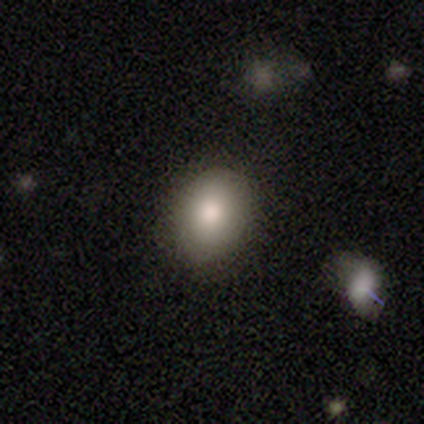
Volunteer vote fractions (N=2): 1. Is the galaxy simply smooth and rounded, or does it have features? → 100% smooth, 0% featured or disk, 0% star or artifact.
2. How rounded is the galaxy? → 100% in between, 0% round, 0% cigar-shaped.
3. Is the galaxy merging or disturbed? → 50% none (tied), 50% minor disturbance (tied), 0% major disturbance, 0% merger.